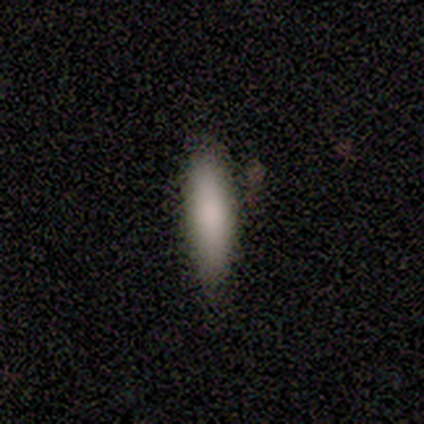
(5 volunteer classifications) Q: Smooth or featured?
A: smooth (80%); runner-up: featured or disk (20%)
Q: How rounded?
A: cigar-shaped (100%)
Q: Merging?
A: none (80%); runner-up: minor disturbance (20%)